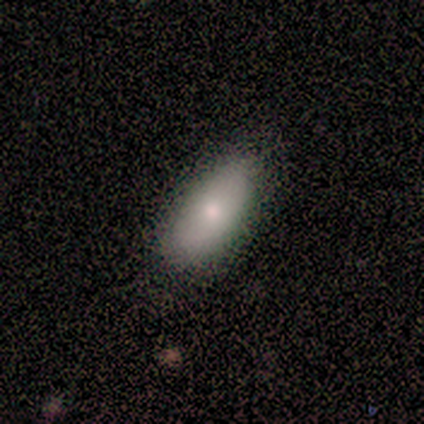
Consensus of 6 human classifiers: Smooth or featured? smooth (83%)
How rounded? in between (100%)
Merging? none (83%)